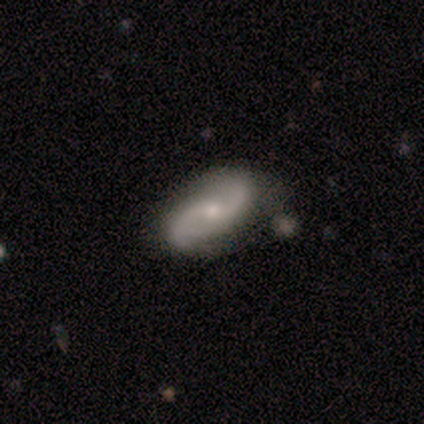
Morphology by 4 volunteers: Smooth or featured?
  - featured or disk: 100% *
  - smooth: 0%
  - star or artifact: 0%
Edge-on disk?
  - no: 100% *
  - yes: 0%
Bar?
  - no: 50% *
  - strong: 25%
  - weak: 25%
Spiral arms?
  - yes: 100% *
  - no: 0%
Spiral winding?
  - loose: 100% *
  - tight: 0%
  - medium: 0%
Spiral arm count?
  - 2: 100% *
  - 1: 0%
  - 3: 0%
  - 4: 0%
  - more than 4: 0%
  - can't tell: 0%
Bulge size?
  - small: 75% *
  - moderate: 25%
  - dominant: 0%
  - large: 0%
  - none: 0%
Merging?
  - none: 75% *
  - minor disturbance: 25%
  - major disturbance: 0%
  - merger: 0%